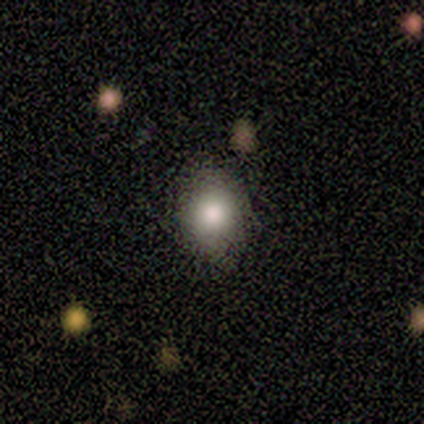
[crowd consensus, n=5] Volunteers were most divided on "how rounded" (2-way tie): round: 50%, in between: 50%, cigar-shaped: 0%. More confident: merging — none (100%); smooth or featured — smooth (80%).